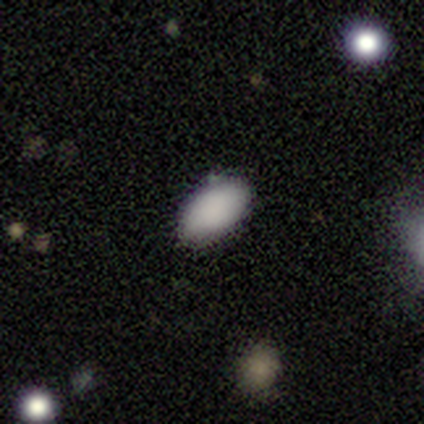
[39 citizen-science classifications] A smooth galaxy with no disk features (97%) that is in between round and cigar-shaped (92%).

Vote fractions:
- Smooth or featured? smooth: 97% / star or artifact: 3% / featured or disk: 0%
- How rounded? in between: 92% / cigar-shaped: 5% / round: 3%
- Merging? none: 84% / minor disturbance: 13% / merger: 3% / major disturbance: 0%